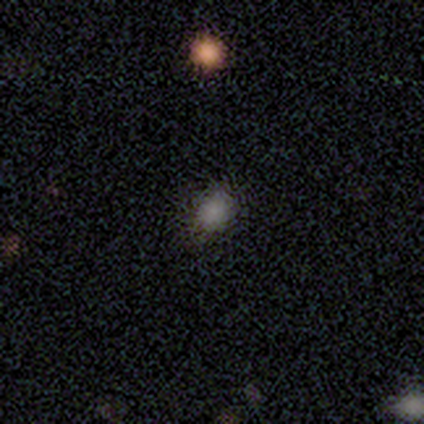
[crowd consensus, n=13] Morphology: type=smooth (77%); roundness=round (60%); merging=none (90%).